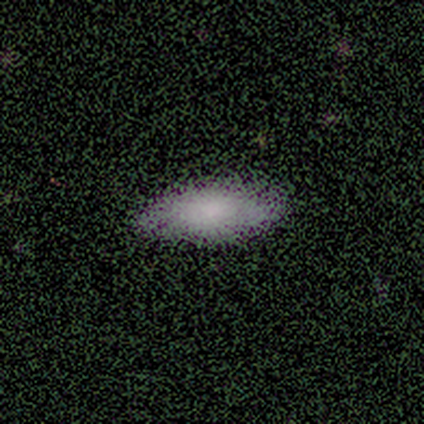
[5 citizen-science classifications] Smooth or featured? smooth (60%)
How rounded? in between (100%)
Merging? none (75%)